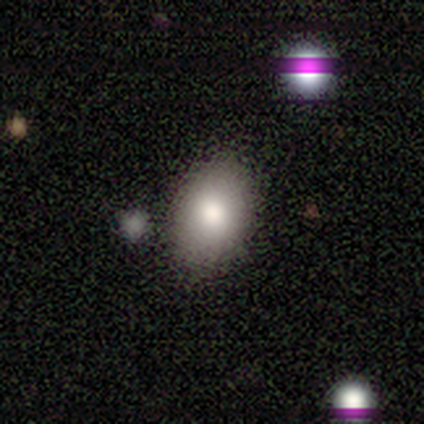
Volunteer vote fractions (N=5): A smooth galaxy with no disk features (60%) that is in between round and cigar-shaped (100%). Merging: none (50%).